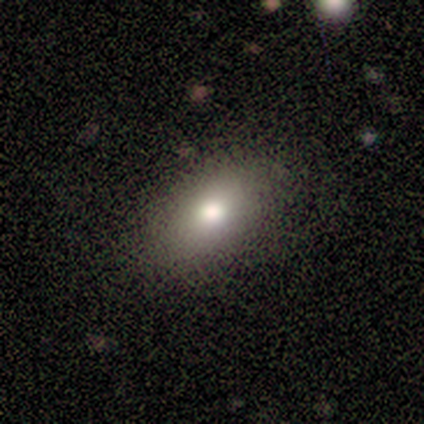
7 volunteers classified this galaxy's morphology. This appears to be a smooth galaxy with no disk features (71%) that is in between round and cigar-shaped (60%). Merging: none (100%).